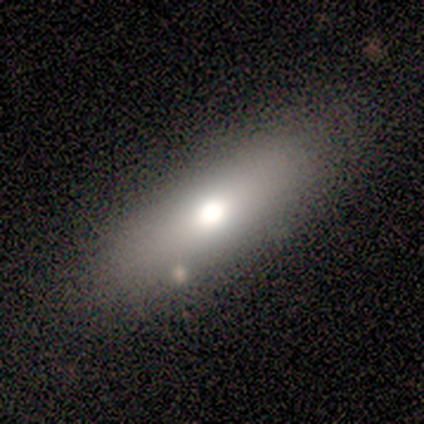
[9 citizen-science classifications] Smooth or featured? 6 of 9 (67%) said smooth. How rounded? 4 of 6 (67%) said in between. Merging? 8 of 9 (89%) said none.